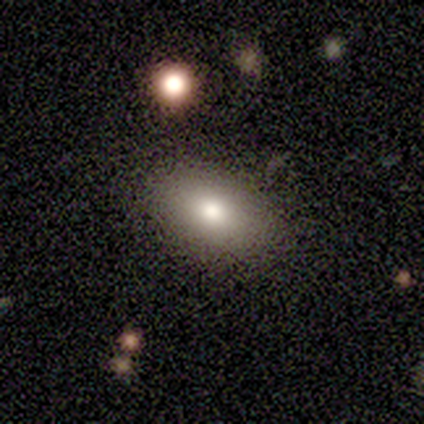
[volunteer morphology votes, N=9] Smooth or featured? 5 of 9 (56%) said smooth. How rounded? 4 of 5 (80%) said in between. Merging? 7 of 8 (88%) said none.